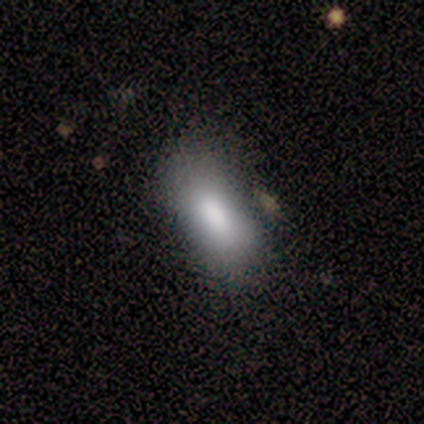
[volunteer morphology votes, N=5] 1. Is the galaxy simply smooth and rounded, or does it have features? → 100% smooth, 0% featured or disk, 0% star or artifact.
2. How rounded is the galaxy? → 100% in between, 0% round, 0% cigar-shaped.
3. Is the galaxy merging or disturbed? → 40% none (tied), 40% minor disturbance (tied), 20% merger, 0% major disturbance.